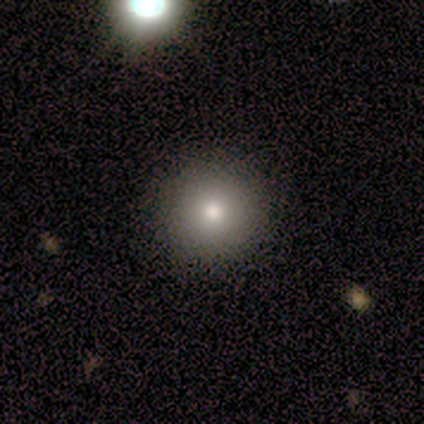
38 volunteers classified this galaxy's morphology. Volunteers were most divided on "smooth or featured": smooth: 84%, star or artifact: 11%, featured or disk: 5%. More confident: merging — none (97%); how rounded — round (94%).